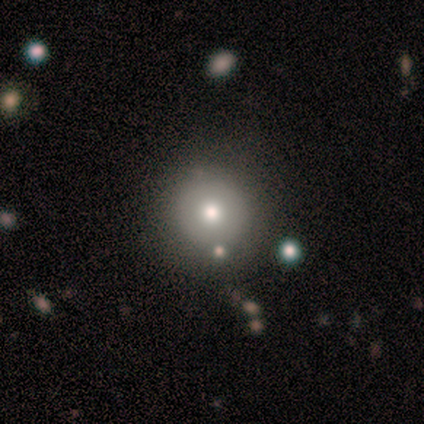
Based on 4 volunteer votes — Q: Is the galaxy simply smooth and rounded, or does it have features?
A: smooth — 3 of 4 (75%).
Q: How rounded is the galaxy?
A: round — 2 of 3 (67%).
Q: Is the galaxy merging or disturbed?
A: none — 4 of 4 (100%).